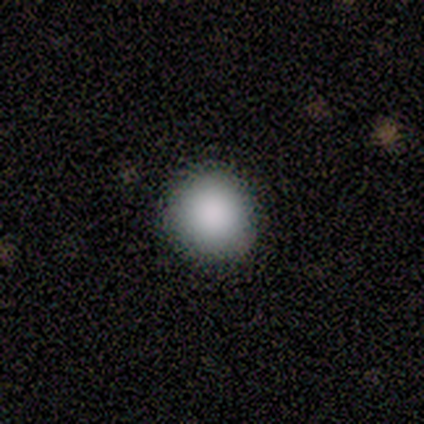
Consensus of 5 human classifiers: Q: Smooth or featured?
A: smooth (100%)
Q: How rounded?
A: round (100%)
Q: Merging?
A: none (80%); runner-up: minor disturbance (20%)